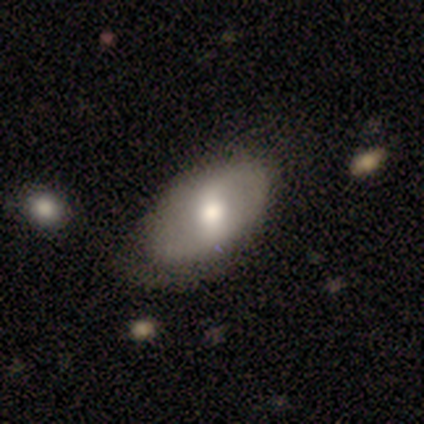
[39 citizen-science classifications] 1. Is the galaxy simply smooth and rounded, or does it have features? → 49% smooth, 46% featured or disk, 5% star or artifact.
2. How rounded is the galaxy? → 79% in between, 21% round, 0% cigar-shaped.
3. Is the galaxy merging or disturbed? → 43% none, 16% minor disturbance, 8% major disturbance, 5% merger.